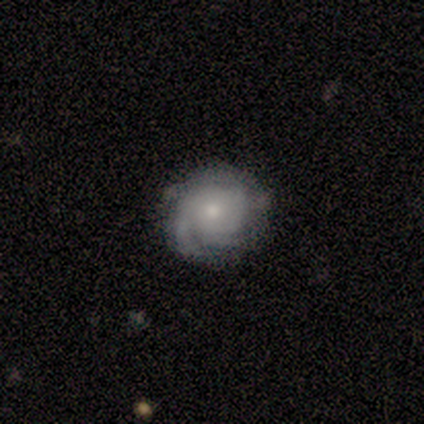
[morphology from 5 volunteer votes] Smooth or featured? featured or disk (100%)
Edge-on disk? no (100%)
Bar? no (100%)
Spiral arms? yes (100%)
Spiral winding? tight (60%)
Spiral arm count? can't tell (80%)
Bulge size? moderate (60%)
Merging? none (100%)